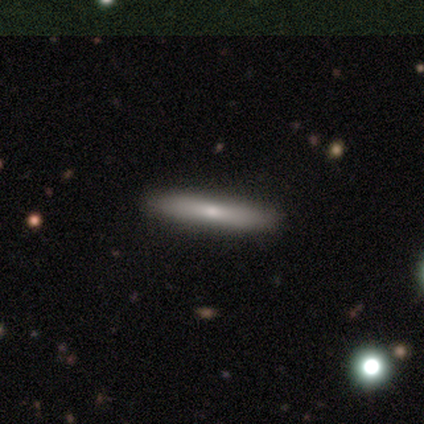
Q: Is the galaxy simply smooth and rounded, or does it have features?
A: smooth — 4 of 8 (50%, tied with featured or disk).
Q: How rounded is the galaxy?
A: cigar-shaped — 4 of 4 (100%).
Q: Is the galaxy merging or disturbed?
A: none — 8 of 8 (100%).